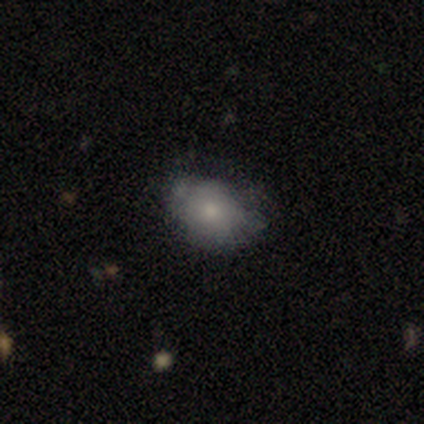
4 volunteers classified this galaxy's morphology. A smooth galaxy with no disk features (75%) that is in between round and cigar-shaped (100%).

Vote fractions:
- Smooth or featured? smooth: 75% / featured or disk: 25% / star or artifact: 0%
- How rounded? in between: 100% / round: 0% / cigar-shaped: 0%
- Merging? minor disturbance: 50% / none: 25% / merger: 25% / major disturbance: 0%